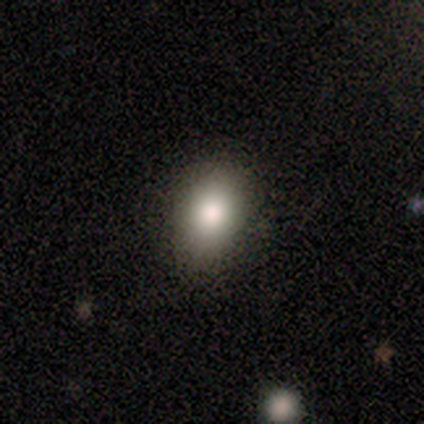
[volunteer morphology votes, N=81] Smooth or featured? 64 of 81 (79%) said smooth. How rounded? 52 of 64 (81%) said in between. Merging? 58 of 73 (79%) said none.